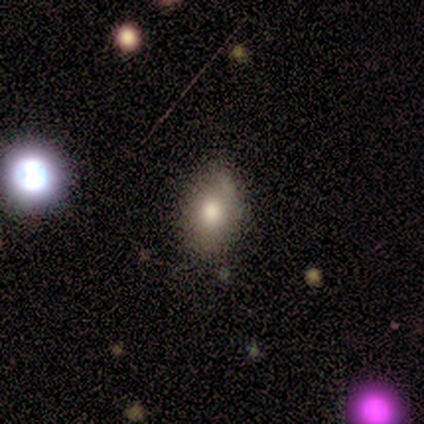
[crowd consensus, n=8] Smooth or featured? 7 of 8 (88%) said smooth. How rounded? 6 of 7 (86%) said in between. Merging? 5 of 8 (62%) said none.